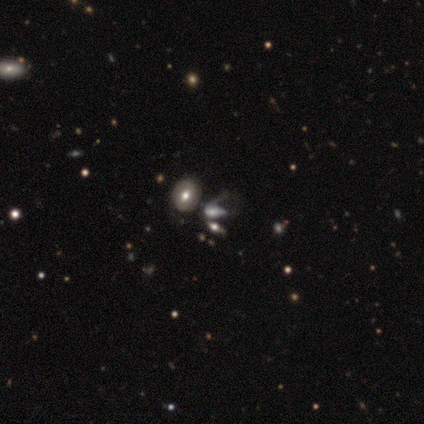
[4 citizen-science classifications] smooth_or_featured: smooth (p=0.75) [alt: featured or disk p=0.25]
how_rounded: in between (p=0.67) [alt: round p=0.33]
merging: minor disturbance (p=0.50) [alt: none p=0.25]